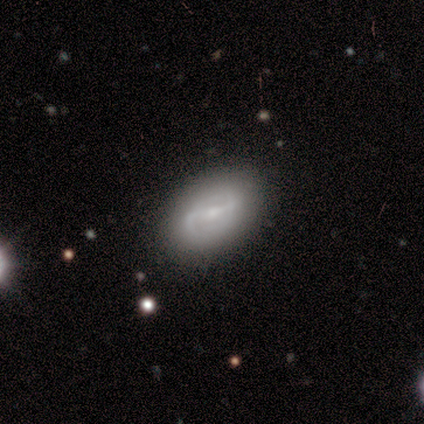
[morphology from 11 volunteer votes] This appears to be a featured or disk galaxy (91%) with a weak bar (56%), 2 (100%) medium (50%) spiral arms (89%) and a moderate central bulge (56%). Merging: none (73%).